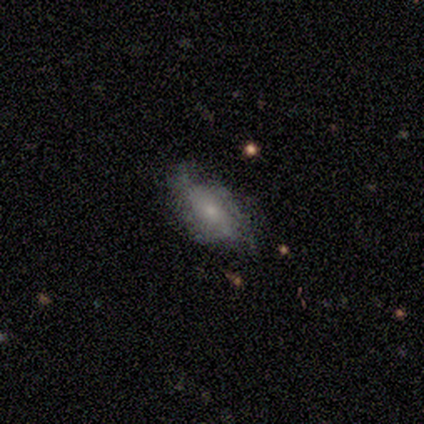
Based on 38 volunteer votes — featured or disk 53%, smooth 42%, star or artifact 5%. Down the decision tree: edge-on disk — no (80%); bar — no (75%); spiral arms — yes (50%, tied with no); spiral arm count — can't tell (62%); spiral winding — medium (62%); bulge size — small (62%); merging — none (61%).